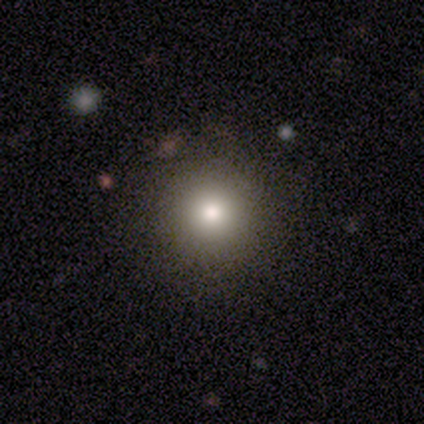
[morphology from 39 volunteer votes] Smooth or featured? smooth (77%)
How rounded? round (100%)
Merging? none (97%)